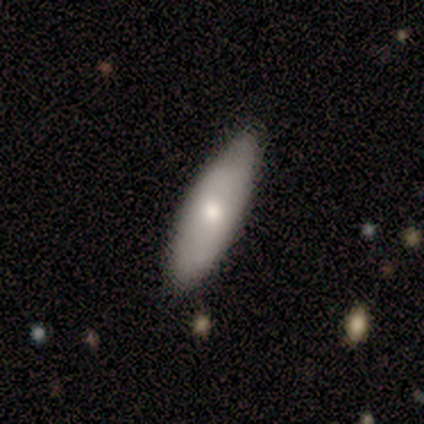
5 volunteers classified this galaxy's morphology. Volunteers were most divided on "smooth or featured" (2-way tie): smooth: 40%, featured or disk: 40%, star or artifact: 20%; "how rounded" (2-way tie): in between: 50%, cigar-shaped: 50%, round: 0%. More confident: merging — none (75%).